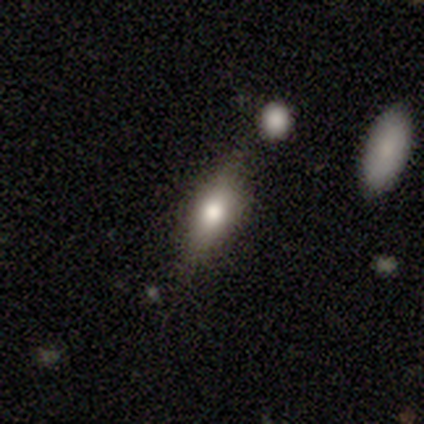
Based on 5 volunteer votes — smooth_or_featured: smooth (p=0.80) [alt: featured or disk p=0.20]
how_rounded: in between (p=0.50) [tied with: cigar-shaped p=0.50]
merging: none (p=1.00)